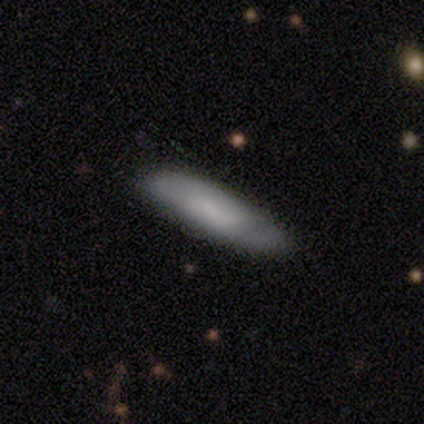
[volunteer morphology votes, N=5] A smooth galaxy with no disk features (60%) that is in between round and cigar-shaped (67%). Merging: none (80%).